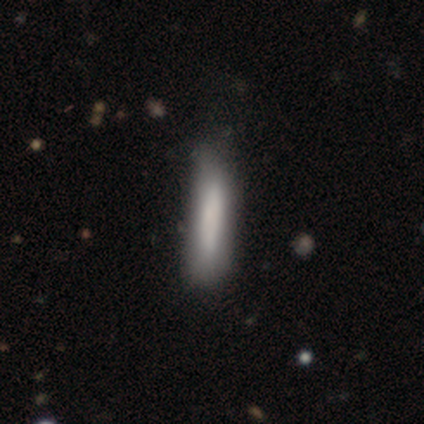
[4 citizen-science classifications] This appears to be a smooth galaxy with no disk features (100%) that is cigar-shaped (100%). Merging: none (75%).